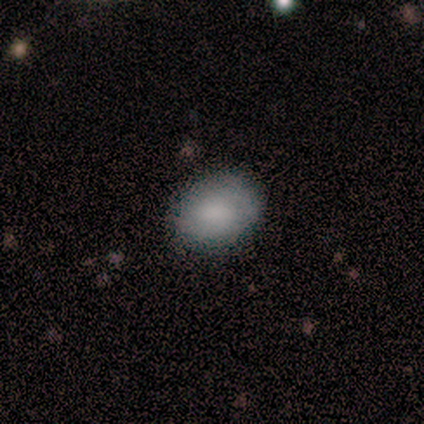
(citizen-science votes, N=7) A smooth galaxy with no disk features (71%) that is in between round and cigar-shaped (60%). Merging: none (67%).